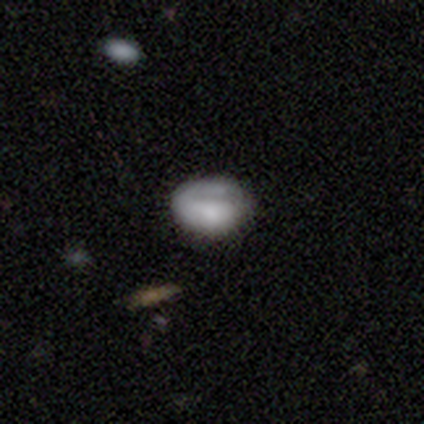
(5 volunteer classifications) This is likely a featured or disk galaxy (60%). It is clearly not viewed edge-on (100%). Bar: marginally strong (33%, tied with weak and no). Spiral arm pattern: likely yes (67%). Spiral arm count: clearly 1 (100%). Spiral winding: clearly tight (100%). Central bulge: marginally dominant (33%, tied with moderate and none). Merging: likely none (60%).